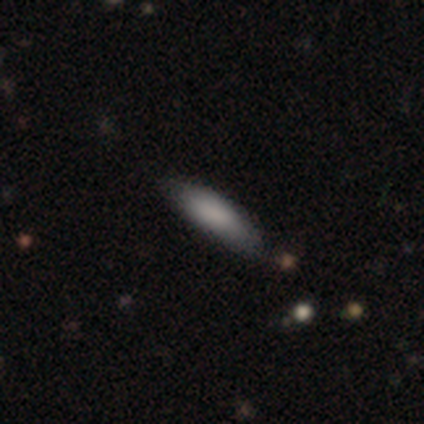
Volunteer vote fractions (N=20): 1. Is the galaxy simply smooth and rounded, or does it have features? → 80% smooth, 20% featured or disk, 0% star or artifact.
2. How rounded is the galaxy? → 75% cigar-shaped, 25% in between, 0% round.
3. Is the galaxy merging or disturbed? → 90% none, 10% minor disturbance, 0% major disturbance, 0% merger.